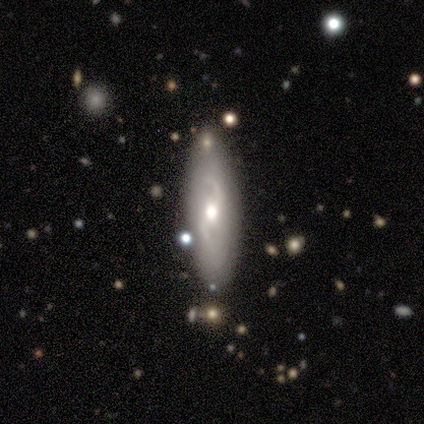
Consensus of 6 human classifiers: smooth-or-featured: featured or disk: 83% | smooth: 17% | star or artifact: 0%
  disk-edge-on: no: 60% | yes: 40%
    bar: weak: 67% | no: 33% | strong: 0%
    has-spiral-arms: yes: 100% | no: 0%
      spiral-winding: loose: 100% | tight: 0% | medium: 0%
      spiral-arm-count: 2: 100% | 1: 0% | 3: 0% | 4: 0% | more than 4: 0% | can't tell: 0%
    bulge-size: moderate: 67% | large: 33% | dominant: 0% | small: 0% | none: 0%
  merging: none: 100% | minor disturbance: 0% | major disturbance: 0% | merger: 0%